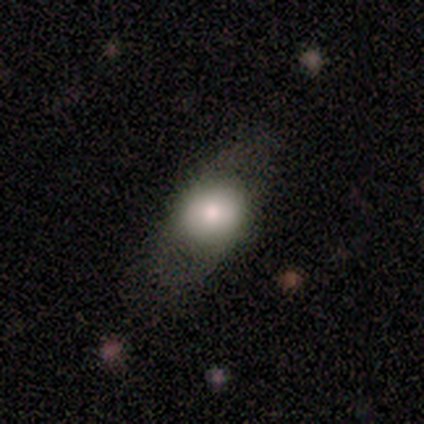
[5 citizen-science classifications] A smooth galaxy with no disk features (100%) that is round (80%).

Vote fractions:
- Smooth or featured? smooth: 100% / featured or disk: 0% / star or artifact: 0%
- How rounded? round: 80% / cigar-shaped: 20% / in between: 0%
- Merging? none: 100% / minor disturbance: 0% / major disturbance: 0% / merger: 0%